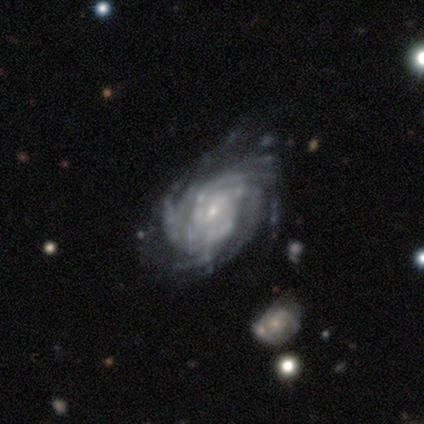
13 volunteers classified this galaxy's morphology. smooth-or-featured: featured or disk: 92% | star or artifact: 8% | smooth: 0%
  disk-edge-on: no: 100% | yes: 0%
    bar: weak: 67% | no: 33% | strong: 0%
    has-spiral-arms: yes: 92% | no: 8%
      spiral-winding: tight: 82% | medium: 9% | loose: 9%
      spiral-arm-count: more than 4: 36% | can't tell: 27% | 3: 18% | 4: 18% | 1: 0% | 2: 0%
    bulge-size: small: 67% | moderate: 25% | none: 8% | dominant: 0% | large: 0%
  merging: none: 42% (tied) | minor disturbance: 42% (tied) | major disturbance: 8% | merger: 8%